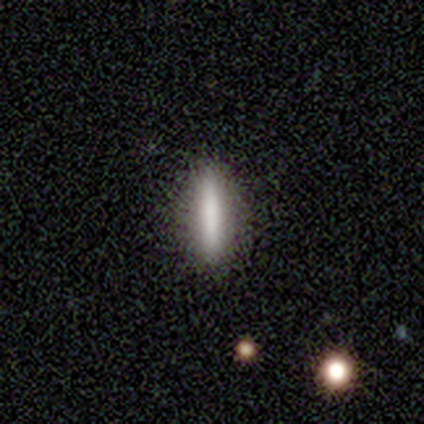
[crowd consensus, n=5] Smooth or featured? 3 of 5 (60%) said smooth. How rounded? 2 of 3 (67%) said cigar-shaped. Merging? 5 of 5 (100%) said none.